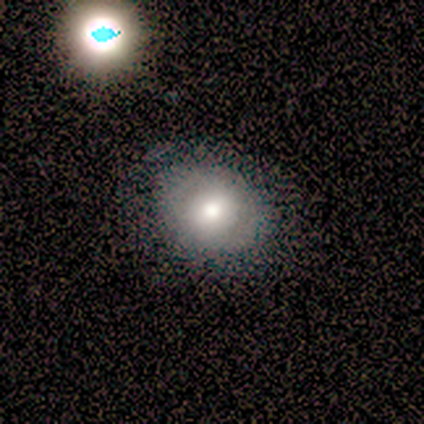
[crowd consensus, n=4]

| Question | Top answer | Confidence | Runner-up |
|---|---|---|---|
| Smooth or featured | smooth | 75% | featured or disk (25%) |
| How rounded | in between | 67% | round (33%) |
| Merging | none | 75% | minor disturbance (25%) |